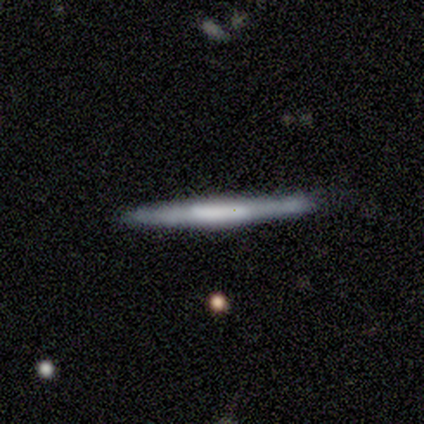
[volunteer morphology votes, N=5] This appears to be a featured or disk galaxy (60%) viewed edge-on (100%) with a boxy central bulge (33%, tied with none and rounded). Merging: none (75%).